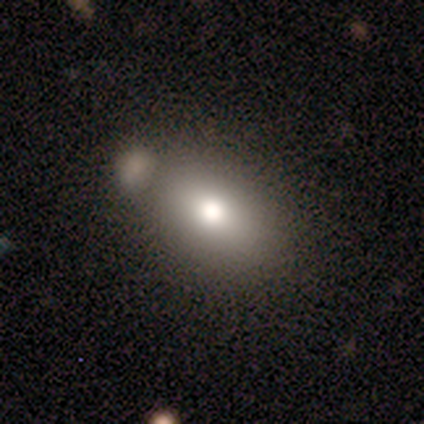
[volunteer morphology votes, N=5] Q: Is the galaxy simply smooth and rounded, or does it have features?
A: smooth — 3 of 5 (60%).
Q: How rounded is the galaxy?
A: in between — 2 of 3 (67%).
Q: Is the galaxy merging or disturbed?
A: none — 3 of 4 (75%).